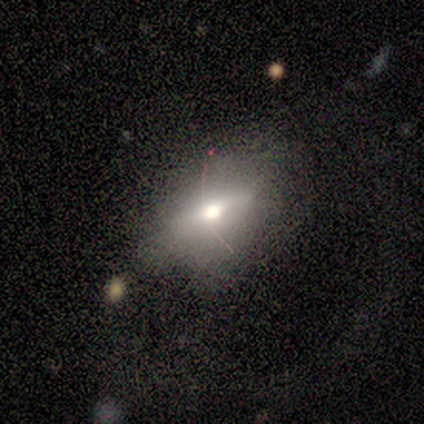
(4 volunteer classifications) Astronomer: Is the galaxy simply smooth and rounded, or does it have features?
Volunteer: smooth — 75%.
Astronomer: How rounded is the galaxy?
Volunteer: in between — 100%.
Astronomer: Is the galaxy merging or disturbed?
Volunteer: none — 50%.